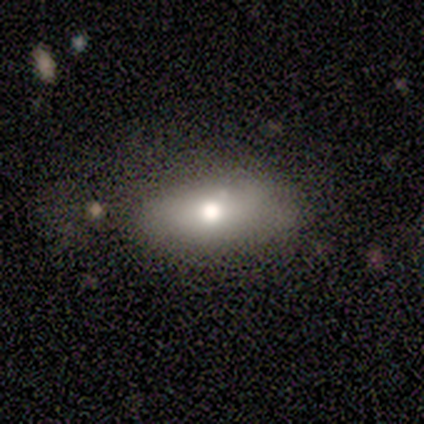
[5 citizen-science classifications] A smooth galaxy with no disk features (40%, tied with star or artifact) that is in between round and cigar-shaped (100%). Merging: none (100%).